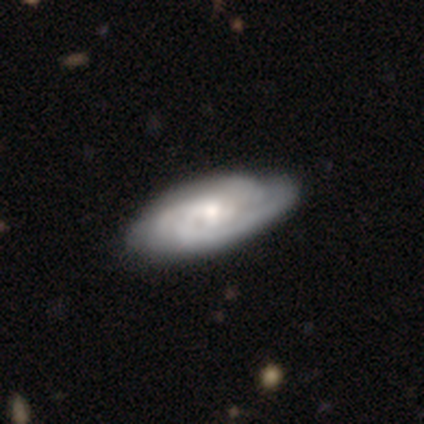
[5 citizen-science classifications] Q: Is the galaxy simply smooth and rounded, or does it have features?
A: featured or disk — 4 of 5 (80%).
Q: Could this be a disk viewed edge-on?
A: no — 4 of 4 (100%).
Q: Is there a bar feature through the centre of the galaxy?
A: no — 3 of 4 (75%).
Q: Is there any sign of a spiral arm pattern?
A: yes — 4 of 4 (100%).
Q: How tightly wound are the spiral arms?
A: tight — 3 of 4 (75%).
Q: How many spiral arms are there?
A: can't tell — 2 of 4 (50%).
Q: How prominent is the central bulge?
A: moderate — 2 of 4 (50%).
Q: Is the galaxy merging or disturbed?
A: none — 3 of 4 (75%).